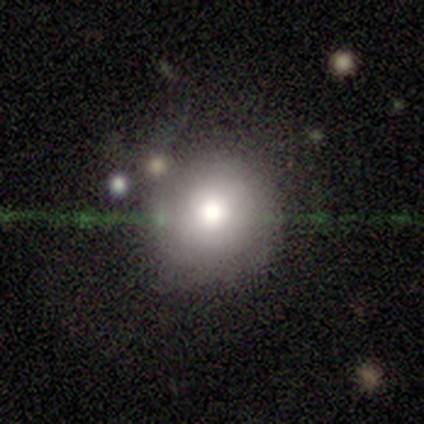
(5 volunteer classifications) Smooth or featured? smooth (60%)
How rounded? round (100%)
Merging? none (100%)